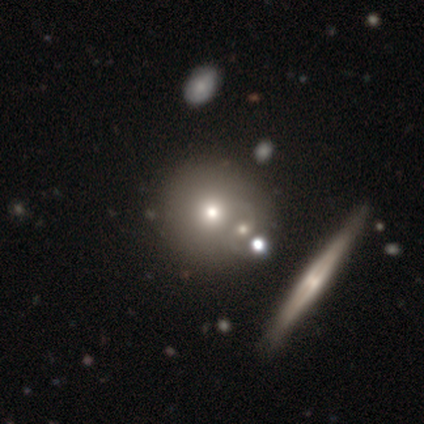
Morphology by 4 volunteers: smooth_or_featured: smooth (p=0.75) [alt: featured or disk p=0.25]
how_rounded: round (p=1.00)
merging: none (p=0.50) [tied with: merger p=0.50]